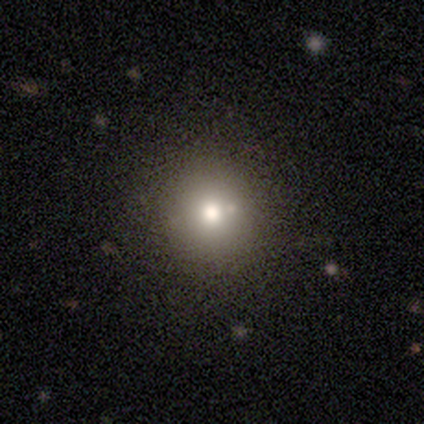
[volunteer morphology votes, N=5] Overall: featured or disk (60%; smooth 40%). Edge-on disk: no (100%). Bar: no (100%). Spiral arms: no (100%). Bulge size: large (67%; moderate 33%). Merging: none (80%).